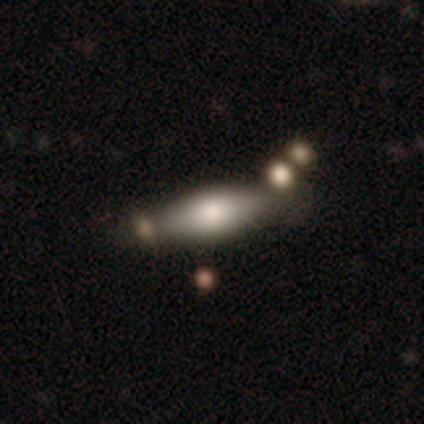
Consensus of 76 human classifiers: smooth_or_featured: smooth (p=0.62) [alt: featured or disk p=0.34]
how_rounded: in between (p=0.77) [alt: cigar-shaped p=0.23]
merging: merger (p=0.29) [alt: none p=0.27]